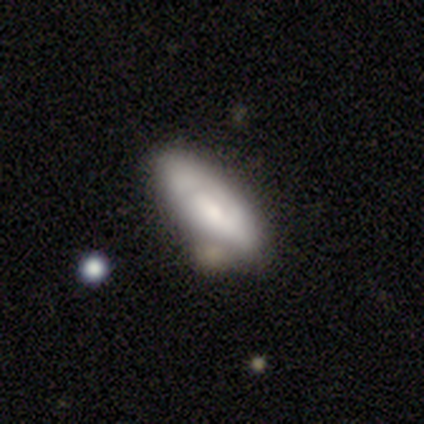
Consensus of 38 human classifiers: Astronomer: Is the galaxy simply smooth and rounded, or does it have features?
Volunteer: smooth — 53% (runner-up: featured or disk, 45%).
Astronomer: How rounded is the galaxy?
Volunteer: in between — 65%.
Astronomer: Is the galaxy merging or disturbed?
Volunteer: none — 38% (runner-up: minor disturbance, 19%).